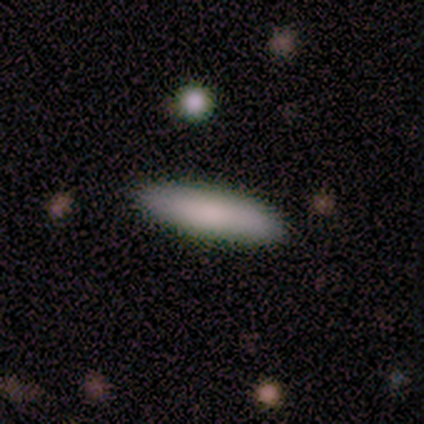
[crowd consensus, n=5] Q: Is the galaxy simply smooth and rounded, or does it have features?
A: smooth — 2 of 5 (40%, tied with featured or disk).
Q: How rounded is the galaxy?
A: cigar-shaped — 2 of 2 (100%).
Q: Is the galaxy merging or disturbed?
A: none — 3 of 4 (75%).